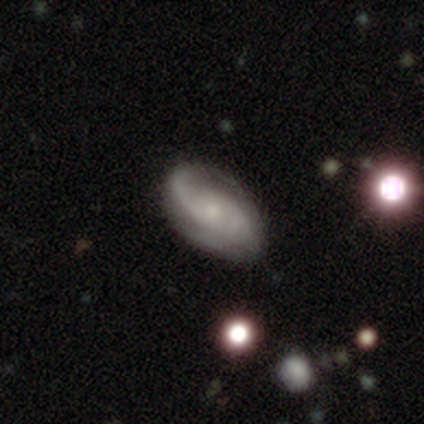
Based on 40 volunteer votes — Volunteers were most divided on "bar": no: 56%, weak: 41%, strong: 3%. More confident: edge-on disk — no (94%); spiral arms — yes (88%); smooth or featured — featured or disk (85%); bulge size — small (78%); merging — none (77%); spiral arm count — 2 (57%); spiral winding — medium (50%).